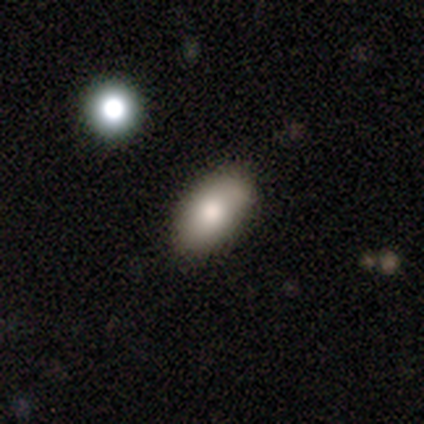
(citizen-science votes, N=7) This is possibly a smooth galaxy (57%). How rounded: clearly in between (100%). Merging: possibly none (50%).